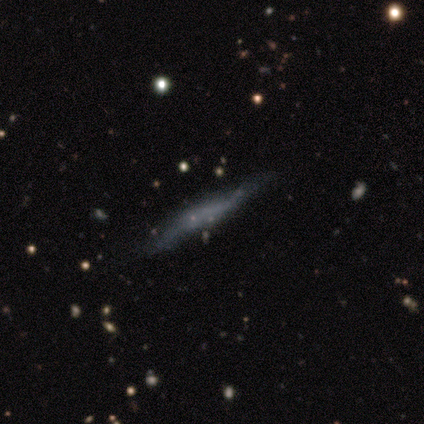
A smooth galaxy with no disk features (40%, tied with featured or disk) that is cigar-shaped (100%).

Vote fractions:
- Smooth or featured? smooth: 40% (tied) / featured or disk: 40% (tied) / star or artifact: 20%
- How rounded? cigar-shaped: 100% / round: 0% / in between: 0%
- Merging? none: 75% / minor disturbance: 25% / major disturbance: 0% / merger: 0%